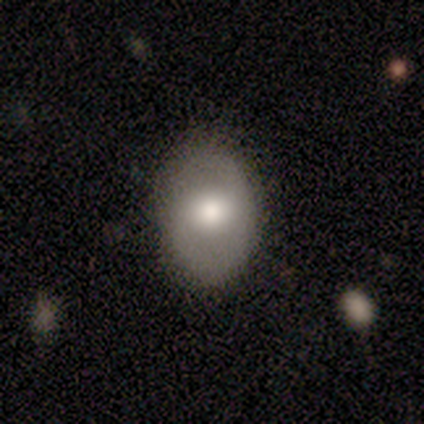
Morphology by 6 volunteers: smooth_or_featured: smooth (p=0.83) [alt: featured or disk p=0.17]
how_rounded: in between (p=0.80) [alt: round p=0.20]
merging: none (p=0.67) [alt: minor disturbance p=0.33]